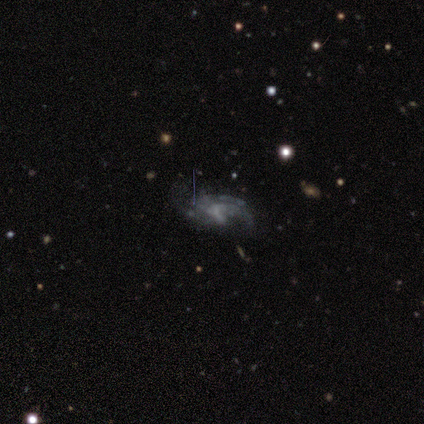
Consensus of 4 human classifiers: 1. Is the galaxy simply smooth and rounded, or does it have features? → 100% featured or disk, 0% smooth, 0% star or artifact.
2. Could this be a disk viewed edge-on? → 100% no, 0% yes.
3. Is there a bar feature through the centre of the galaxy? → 50% weak, 25% strong, 25% no.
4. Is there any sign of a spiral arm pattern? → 50% yes (tied), 50% no (tied).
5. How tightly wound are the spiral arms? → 100% medium, 0% tight, 0% loose.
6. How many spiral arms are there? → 100% 2, 0% 1, 0% 3, 0% 4, 0% more than 4, 0% can't tell.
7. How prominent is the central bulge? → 75% none, 25% moderate, 0% dominant, 0% large, 0% small.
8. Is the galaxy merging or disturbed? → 75% none, 25% minor disturbance, 0% major disturbance, 0% merger.